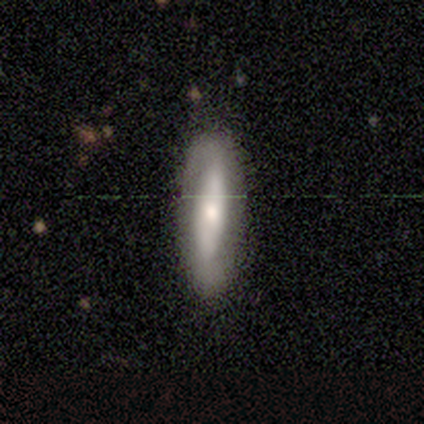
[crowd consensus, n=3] smooth_or_featured: featured or disk (p=0.67) [alt: smooth p=0.33]
disk_edge_on: no (p=1.00)
bar: strong (p=1.00)
has_spiral_arms: yes (p=1.00)
spiral_winding: loose (p=1.00)
spiral_arm_count: 2 (p=1.00)
bulge_size: dominant (p=0.50) [tied with: moderate p=0.50]
merging: none (p=1.00)